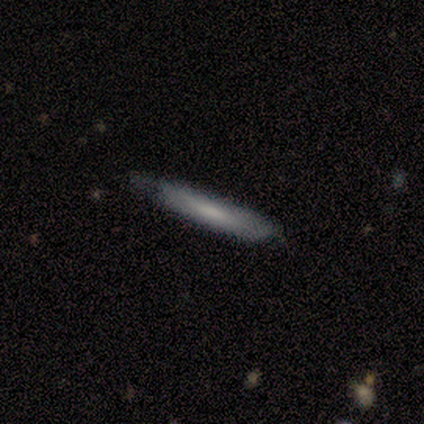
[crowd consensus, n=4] This appears to be a featured or disk galaxy (75%) viewed edge-on (100%) with a boxy central bulge (33%, tied with none and rounded). Merging: none (50%).